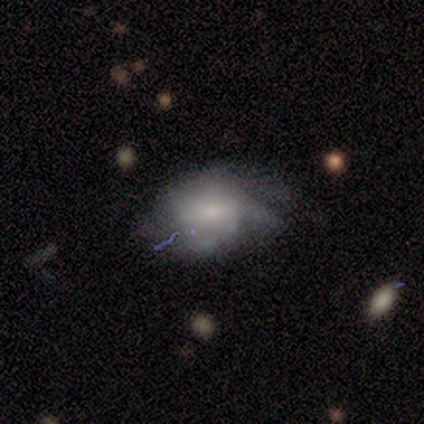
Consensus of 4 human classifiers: Smooth or featured: smooth — 50% (tied with featured or disk — 50%)
How rounded: in between — 100%
Merging: none — 50% (minor disturbance — 25%)